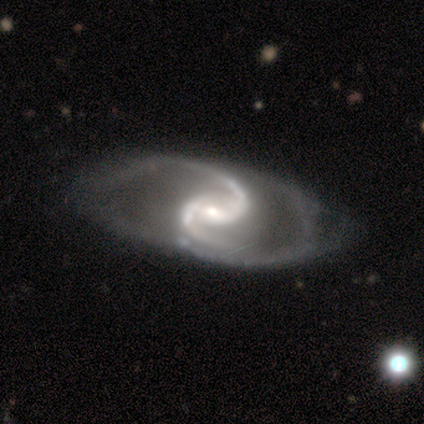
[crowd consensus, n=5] Smooth or featured? featured or disk (80%)
Edge-on disk? no (100%)
Bar? weak (50%, tied with no)
Spiral arms? yes (100%)
Spiral winding? medium (50%, tied with loose)
Spiral arm count? 2 (100%)
Bulge size? moderate (50%, tied with small)
Merging? none (60%)